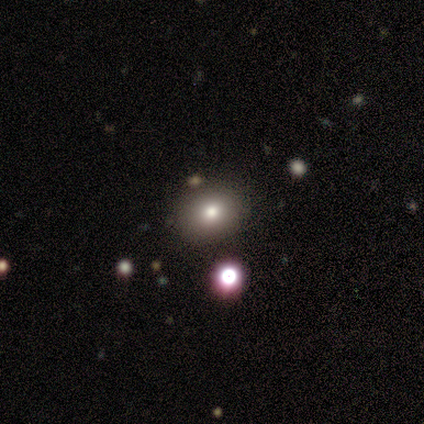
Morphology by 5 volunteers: Q: Smooth or featured?
A: smooth (60%); runner-up: featured or disk (40%)
Q: How rounded?
A: round (100%)
Q: Merging?
A: none (100%)